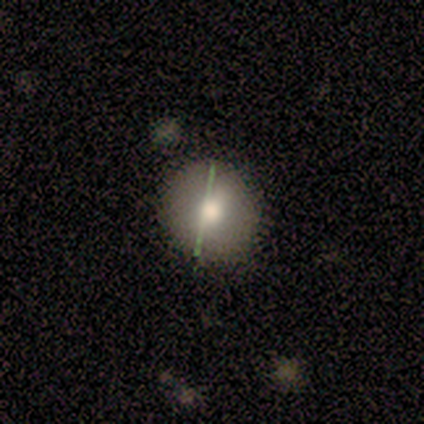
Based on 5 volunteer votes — Smooth or featured? 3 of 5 (60%) said smooth. How rounded? 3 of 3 (100%) said round. Merging? 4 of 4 (100%) said none.